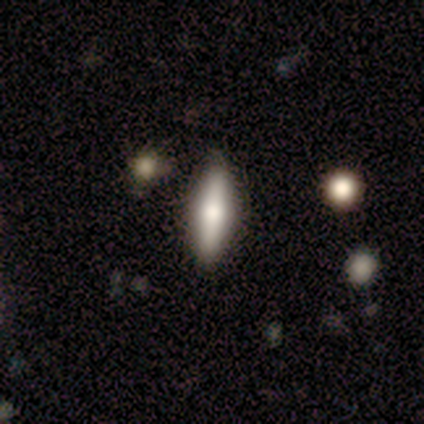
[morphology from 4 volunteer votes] smooth 50% (tied), featured or disk 50% (tied), star or artifact 0%. Down the decision tree: how rounded — cigar-shaped (100%); merging — none (100%).